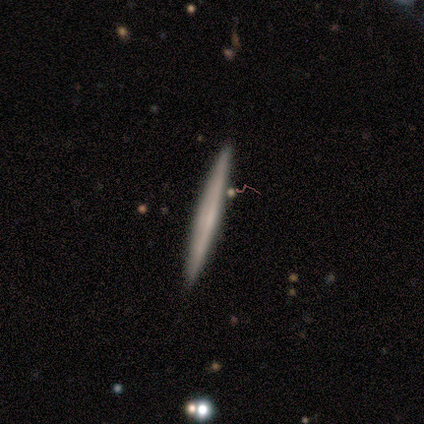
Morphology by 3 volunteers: A featured or disk galaxy (100%) viewed edge-on (100%) with no central bulge (100%).

Vote fractions:
- Smooth or featured? featured or disk: 100% / smooth: 0% / star or artifact: 0%
- Edge-on disk? yes: 100% / no: 0%
- Edge-on bulge? none: 100% / boxy: 0% / rounded: 0%
- Merging? none: 100% / minor disturbance: 0% / major disturbance: 0% / merger: 0%